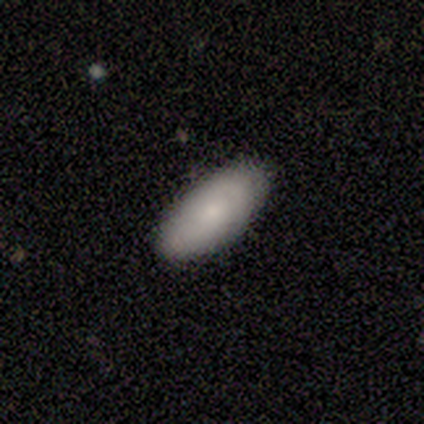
smooth_or_featured: smooth (p=0.80) [alt: featured or disk p=0.20]
how_rounded: in between (p=0.75) [alt: cigar-shaped p=0.25]
merging: none (p=0.60) [alt: minor disturbance p=0.40]